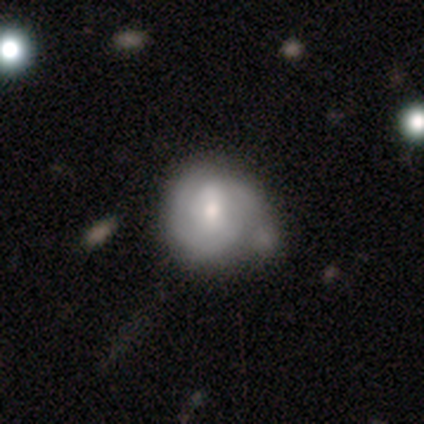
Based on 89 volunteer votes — A featured or disk galaxy (57%) with no bar (52%), 2 (45%) tight (74%) spiral arms (84%) and a moderate central bulge (58%). Merging: none (40%).